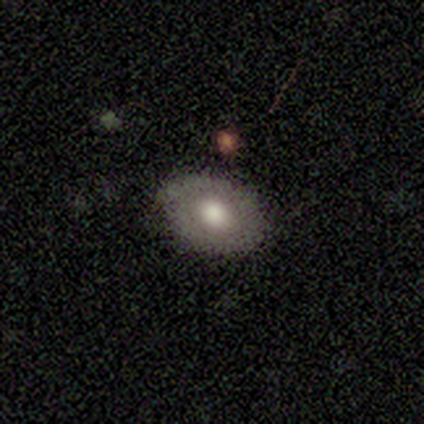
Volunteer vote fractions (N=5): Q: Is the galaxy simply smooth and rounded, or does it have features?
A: smooth — 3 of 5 (60%).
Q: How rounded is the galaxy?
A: in between — 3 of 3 (100%).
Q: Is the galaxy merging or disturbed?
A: none — 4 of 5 (80%).